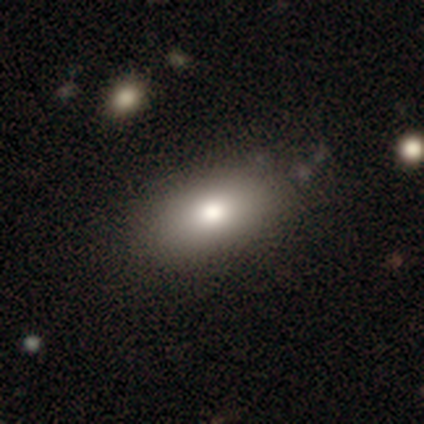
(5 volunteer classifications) A smooth galaxy with no disk features (100%) that is in between round and cigar-shaped (100%). Merging: none (80%).